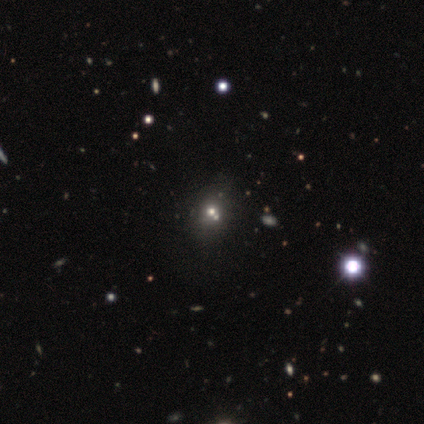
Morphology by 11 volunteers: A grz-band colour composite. It shows a star or artifact, not a galaxy (55%).